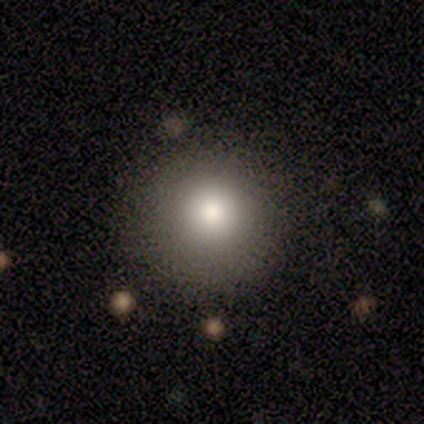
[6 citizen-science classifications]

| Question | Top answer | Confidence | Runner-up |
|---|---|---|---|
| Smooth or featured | smooth | 100% | — |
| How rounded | round | 100% | — |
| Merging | none | 83% | minor disturbance (17%) |